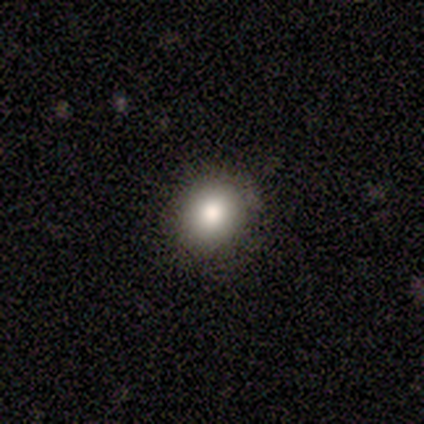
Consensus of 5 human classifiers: smooth-or-featured: smooth: 80% | star or artifact: 20% | featured or disk: 0%
  how-rounded: round: 75% | in between: 25% | cigar-shaped: 0%
  merging: none: 100% | minor disturbance: 0% | major disturbance: 0% | merger: 0%